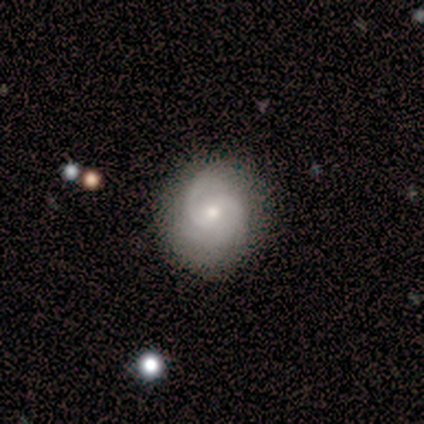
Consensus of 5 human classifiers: This appears to be a featured or disk galaxy (100%) with a weak bar (60%), 2 (80%) tight (40%, tied with medium) spiral arms (100%) and a moderate central bulge (60%). Merging: none (100%).